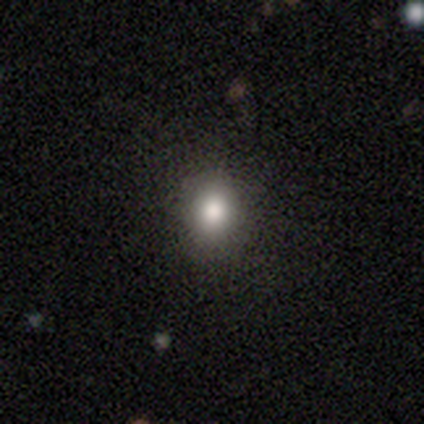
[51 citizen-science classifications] smooth_or_featured: smooth (p=0.84) [alt: star or artifact p=0.14]
how_rounded: round (p=0.84) [alt: in between p=0.16]
merging: none (p=0.91) [alt: minor disturbance p=0.05]